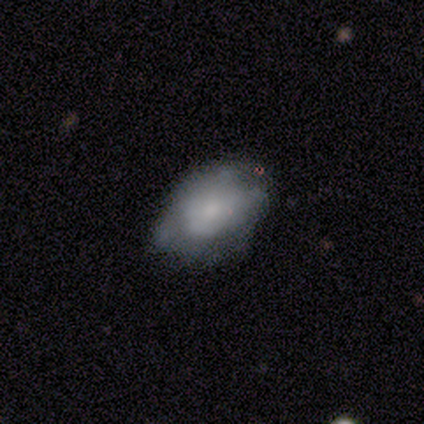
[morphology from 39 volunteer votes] Smooth or featured: smooth — 54% (featured or disk — 36%)
How rounded: in between — 86% (round — 14%)
Merging: minor disturbance — 43% (none — 37%)